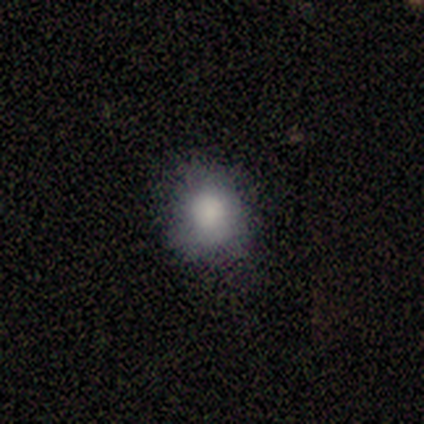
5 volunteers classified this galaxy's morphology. smooth 100%, featured or disk 0%, star or artifact 0%. Down the decision tree: how rounded — round (80%); merging — none (60%).